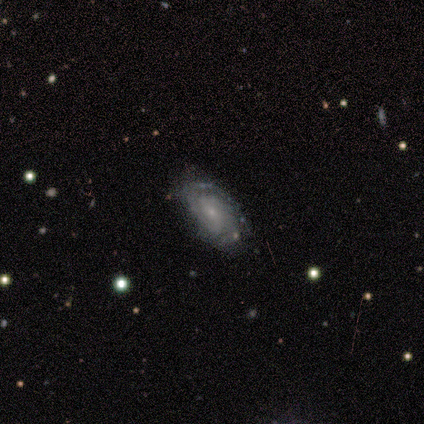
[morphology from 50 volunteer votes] Smooth or featured: featured or disk — 82% (smooth — 14%)
Edge-on disk: no — 98% (yes — 2%)
Bar: no — 82% (weak — 12%)
Spiral arms: yes — 90% (no — 10%)
Spiral winding: tight — 81% (medium — 11%)
Spiral arm count: can't tell — 44% (2 — 28%)
Bulge size: small — 82% (moderate — 10%)
Merging: none — 81% (minor disturbance — 12%)